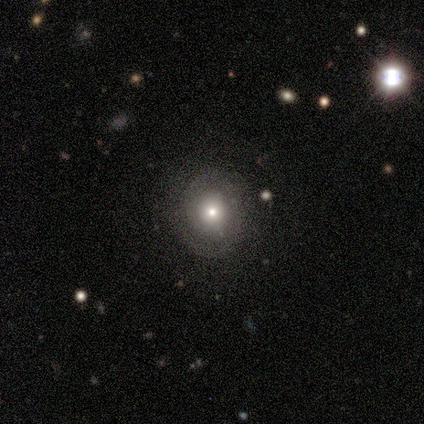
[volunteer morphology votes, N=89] Overall: smooth (43%; featured or disk 37%). How rounded: round (89%). Merging: none (80%).